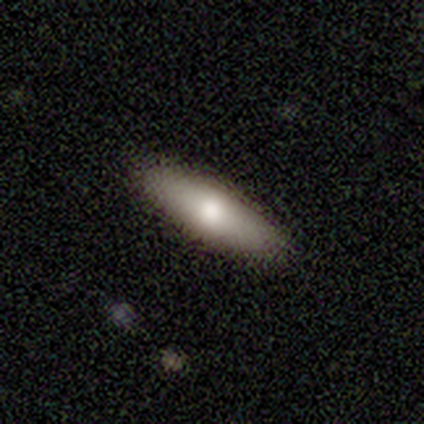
This appears to be a smooth galaxy with no disk features (75%) that is in between round and cigar-shaped (50%, tied with cigar-shaped). Merging: none (100%).